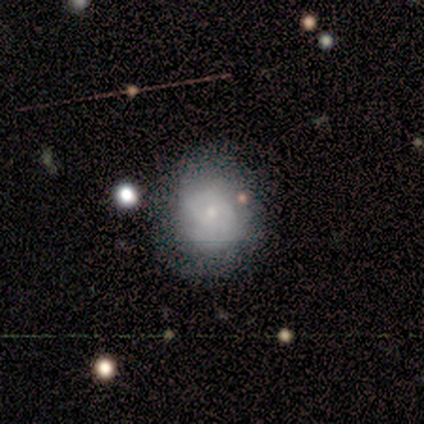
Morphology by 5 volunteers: smooth_or_featured: featured or disk (p=0.60) [alt: smooth p=0.40]
disk_edge_on: no (p=1.00)
bar: no (p=0.67) [alt: weak p=0.33]
has_spiral_arms: yes (p=0.67) [alt: no p=0.33]
spiral_winding: medium (p=1.00)
spiral_arm_count: 1 (p=0.50) [tied with: 2 p=0.50]
bulge_size: small (p=1.00)
merging: none (p=0.60) [alt: minor disturbance p=0.40]